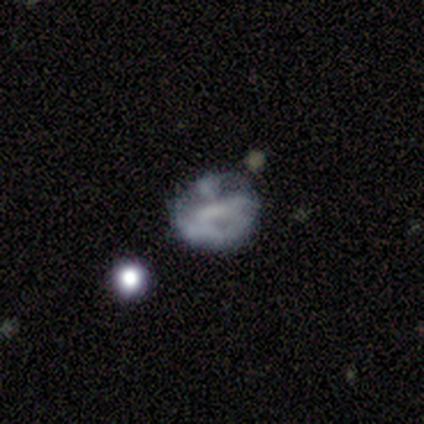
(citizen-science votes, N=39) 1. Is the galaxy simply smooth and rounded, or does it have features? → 54% featured or disk, 33% smooth, 13% star or artifact.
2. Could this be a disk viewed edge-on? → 100% no, 0% yes.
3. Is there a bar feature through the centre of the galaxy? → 48% no, 29% weak, 24% strong.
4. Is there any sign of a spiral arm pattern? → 81% no, 19% yes.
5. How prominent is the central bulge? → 67% none, 19% small, 14% moderate, 0% dominant, 0% large.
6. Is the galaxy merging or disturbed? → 35% none, 32% major disturbance, 29% minor disturbance, 3% merger.